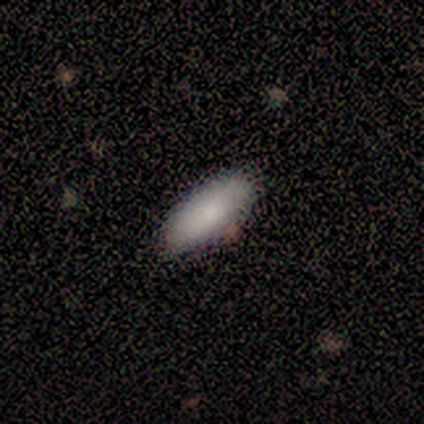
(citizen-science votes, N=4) smooth_or_featured: smooth (p=0.75) [alt: featured or disk p=0.25]
how_rounded: in between (p=0.67) [alt: cigar-shaped p=0.33]
merging: none (p=1.00)